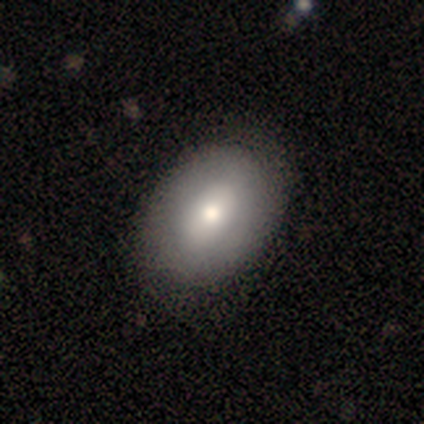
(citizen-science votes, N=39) Volunteers were most divided on "smooth or featured": smooth: 64%, featured or disk: 31%, star or artifact: 5%. More confident: how rounded — in between (84%); merging — none (70%).